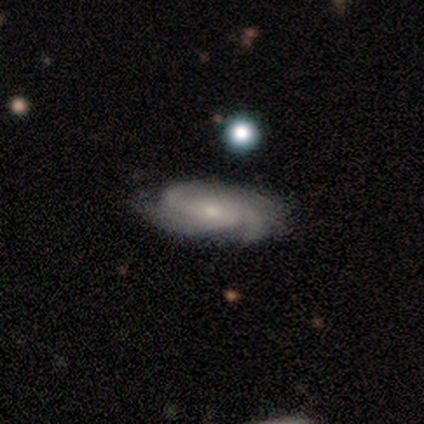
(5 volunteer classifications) Smooth or featured? 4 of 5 (80%) said featured or disk. Edge-on disk? 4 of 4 (100%) said no. Bar? 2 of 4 (50%, tied with no) said weak. Spiral arms? 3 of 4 (75%) said yes. Spiral winding? 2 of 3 (67%) said tight. Spiral arm count? 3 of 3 (100%) said 3. Bulge size? 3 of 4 (75%) said small. Merging? 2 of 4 (50%, tied with minor disturbance) said none.